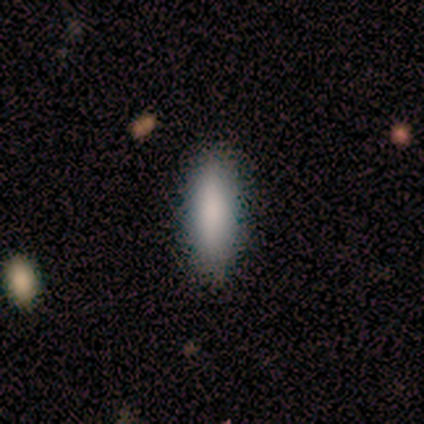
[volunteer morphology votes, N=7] Smooth or featured? smooth (100%)
How rounded? cigar-shaped (71%)
Merging? none (86%)